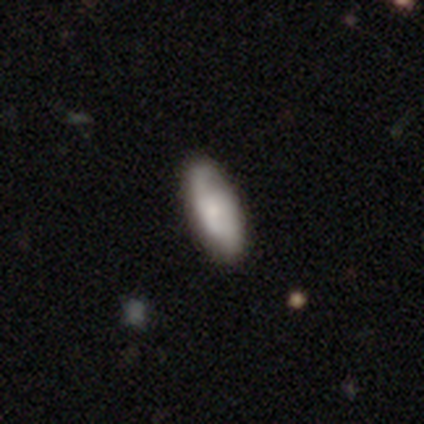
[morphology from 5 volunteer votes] Volunteers were most divided on "smooth or featured" (2-way tie): smooth: 40%, featured or disk: 40%, star or artifact: 20%; "how rounded" (2-way tie): round: 50%, cigar-shaped: 50%, in between: 0%. More confident: merging — none (75%).